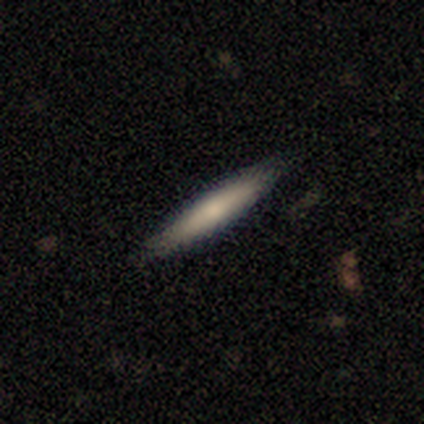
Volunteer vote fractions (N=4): smooth-or-featured: smooth: 75% | star or artifact: 25% | featured or disk: 0%
  how-rounded: cigar-shaped: 100% | round: 0% | in between: 0%
  merging: none: 100% | minor disturbance: 0% | major disturbance: 0% | merger: 0%